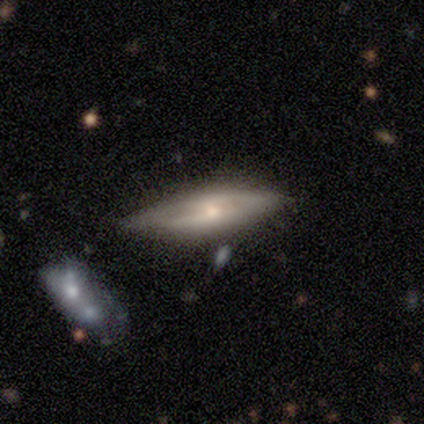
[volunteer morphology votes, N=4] Smooth or featured: featured or disk — 75% (smooth — 25%)
Edge-on disk: no — 67% (yes — 33%)
Bar: weak — 50% (tied with no — 50%)
Spiral arms: no — 100%
Bulge size: moderate — 100%
Merging: minor disturbance — 75% (merger — 25%)